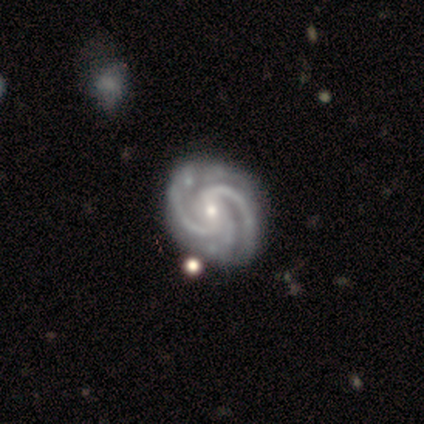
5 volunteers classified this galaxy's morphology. smooth-or-featured: featured or disk: 80% | star or artifact: 20% | smooth: 0%
  disk-edge-on: no: 100% | yes: 0%
    bar: weak: 75% | no: 25% | strong: 0%
    has-spiral-arms: yes: 100% | no: 0%
      spiral-winding: tight: 100% | medium: 0% | loose: 0%
      spiral-arm-count: 3: 75% | 2: 25% | 1: 0% | 4: 0% | more than 4: 0% | can't tell: 0%
    bulge-size: moderate: 50% (tied) | small: 50% (tied) | dominant: 0% | large: 0% | none: 0%
  merging: none: 50% (tied) | minor disturbance: 50% (tied) | major disturbance: 0% | merger: 0%